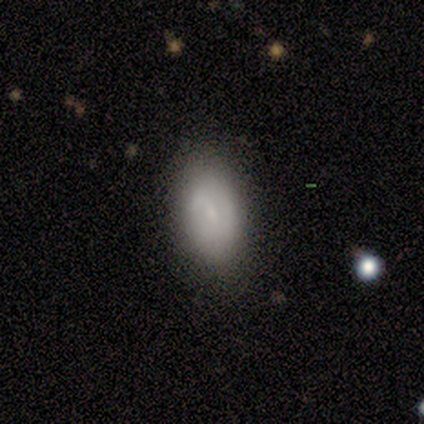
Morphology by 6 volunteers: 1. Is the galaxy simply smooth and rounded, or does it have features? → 67% featured or disk, 33% smooth, 0% star or artifact.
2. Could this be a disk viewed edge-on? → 75% no, 25% yes.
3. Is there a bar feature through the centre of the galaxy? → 100% weak, 0% strong, 0% no.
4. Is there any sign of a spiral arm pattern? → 67% no, 33% yes.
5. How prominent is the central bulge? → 100% small, 0% dominant, 0% large, 0% moderate, 0% none.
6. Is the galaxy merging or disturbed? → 83% none, 17% merger, 0% minor disturbance, 0% major disturbance.